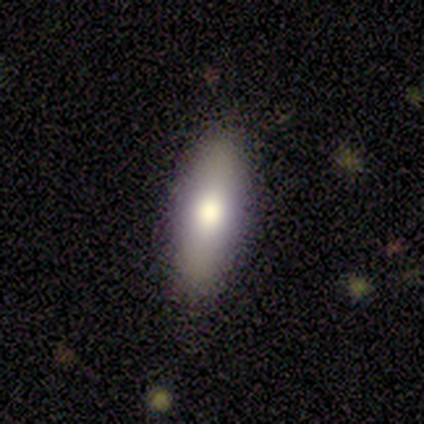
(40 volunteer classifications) This appears to be a smooth galaxy with no disk features (62%) that is cigar-shaped (56%). Merging: none (92%).